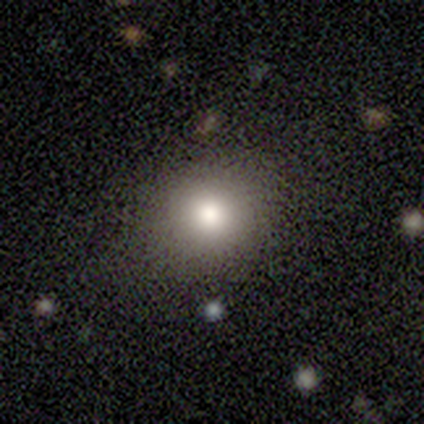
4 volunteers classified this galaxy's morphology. Q: Smooth or featured?
A: smooth (75%); runner-up: star or artifact (25%)
Q: How rounded?
A: round (100%)
Q: Merging?
A: none (67%); runner-up: minor disturbance (33%)